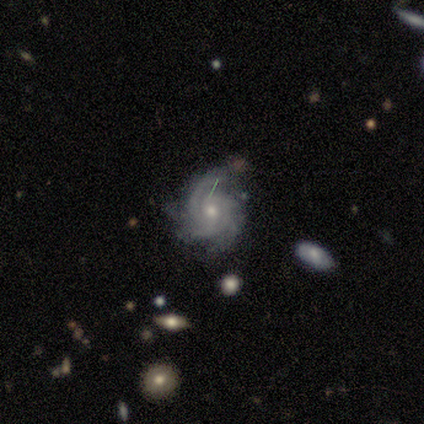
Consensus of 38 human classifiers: Morphology: type=featured or disk (95%); edge-on=no (100%); bar=no (81%); spiral arms=yes (97%); winding=tight (69%); arm count=4 (37%); bulge=small (58%); merging=none (70%).